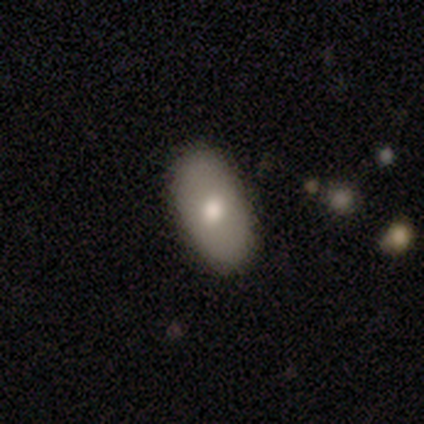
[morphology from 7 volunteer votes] smooth-or-featured: smooth: 86% | featured or disk: 14% | star or artifact: 0%
  how-rounded: in between: 100% | round: 0% | cigar-shaped: 0%
  merging: none: 86% | minor disturbance: 14% | major disturbance: 0% | merger: 0%